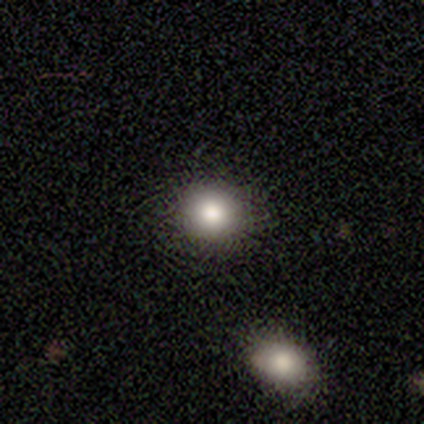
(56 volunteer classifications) Smooth or featured: smooth — 84% (star or artifact — 9%)
How rounded: round — 79% (in between — 21%)
Merging: none — 94% (minor disturbance — 4%)